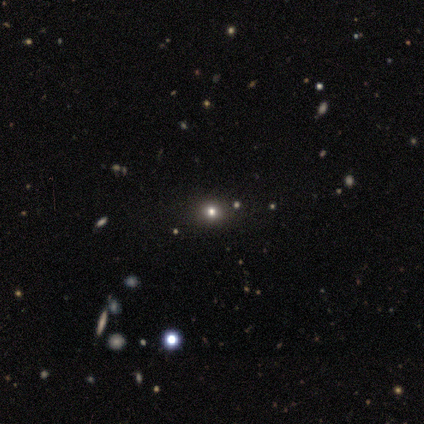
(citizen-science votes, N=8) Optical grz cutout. It shows a smooth galaxy with no disk features (50%) that is round (75%). Merging: none (80%).